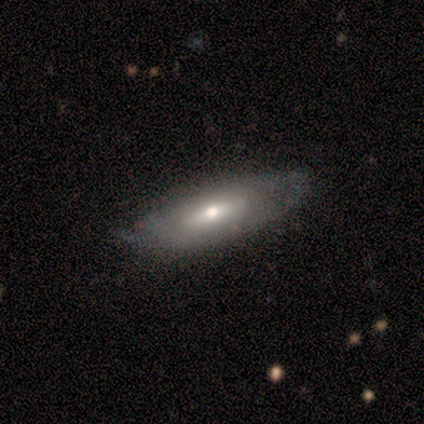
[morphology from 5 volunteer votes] smooth_or_featured: featured or disk (p=0.60) [alt: smooth p=0.40]
disk_edge_on: no (p=0.67) [alt: yes p=0.33]
bar: no (p=1.00)
has_spiral_arms: no (p=1.00)
bulge_size: large (p=0.50) [tied with: moderate p=0.50]
merging: none (p=0.80) [alt: minor disturbance p=0.20]